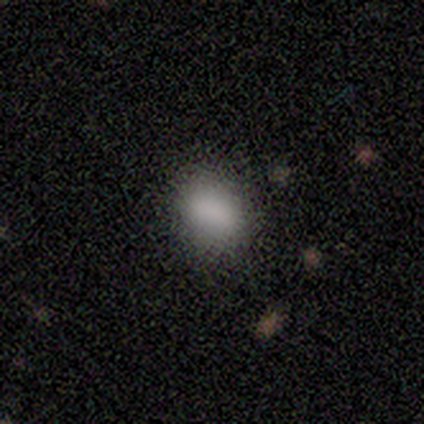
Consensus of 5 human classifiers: This appears to be a smooth galaxy with no disk features (100%) that is in between round and cigar-shaped (100%). Merging: none (100%).